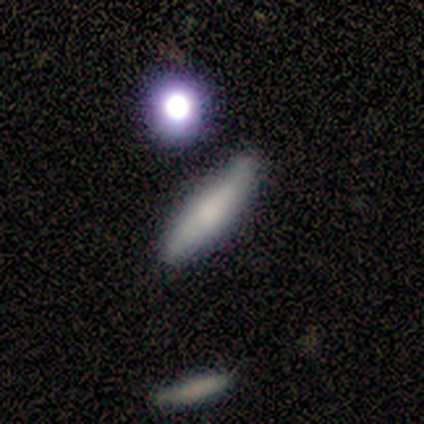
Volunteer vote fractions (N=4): Overall: featured or disk (50%; smooth 25%). Edge-on disk: yes (100%). Edge-on bulge: none (50%, tied with rounded). Merging: none (33%, tied with minor disturbance and merger).